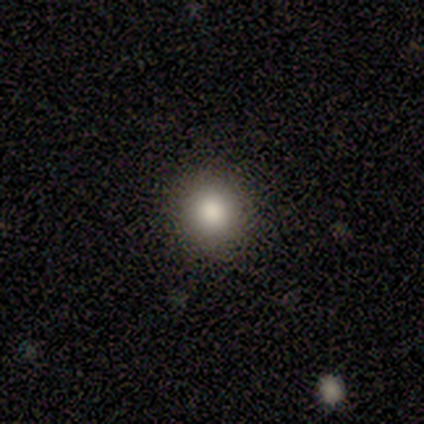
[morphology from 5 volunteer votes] smooth_or_featured: smooth (p=0.60) [alt: star or artifact p=0.40]
how_rounded: round (p=0.67) [alt: in between p=0.33]
merging: none (p=1.00)